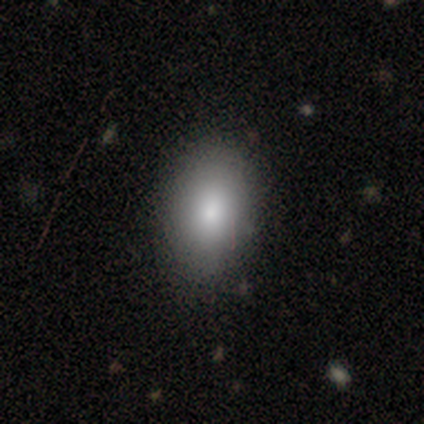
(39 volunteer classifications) A smooth galaxy with no disk features (79%) that is in between round and cigar-shaped (90%).

Vote fractions:
- Smooth or featured? smooth: 79% / featured or disk: 13% / star or artifact: 8%
- How rounded? in between: 90% / round: 10% / cigar-shaped: 0%
- Merging? none: 53% / minor disturbance: 6% / major disturbance: 3% / merger: 3%